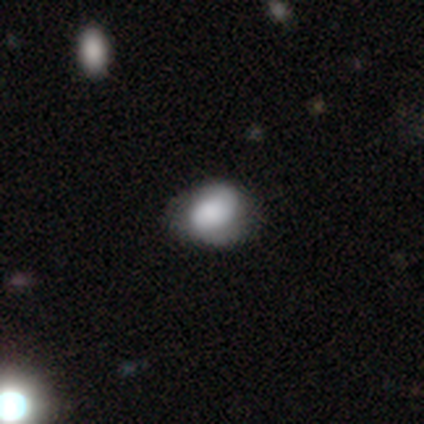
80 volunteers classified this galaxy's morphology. Smooth or featured? 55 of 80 (69%) said smooth. How rounded? 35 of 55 (64%) said in between. Merging? 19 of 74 (26%) said none.